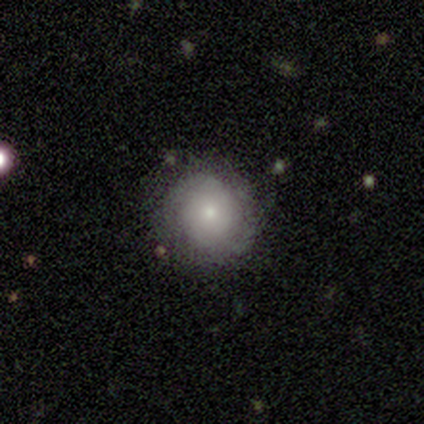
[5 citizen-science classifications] A featured or disk galaxy (60%) with no bar (100%), no spiral arms (67%) and a small central bulge (100%). Merging: none (80%).